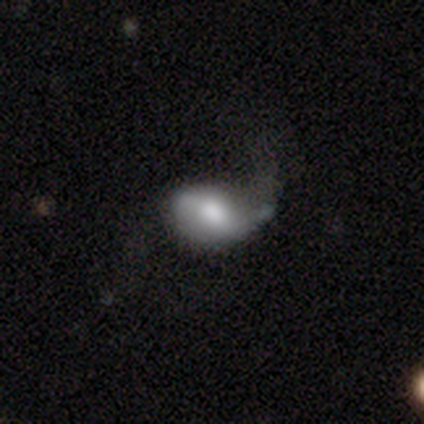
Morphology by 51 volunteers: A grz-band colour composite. It shows a smooth galaxy with no disk features (59%) that is in between round and cigar-shaped (87%). Merging: major disturbance (40%).